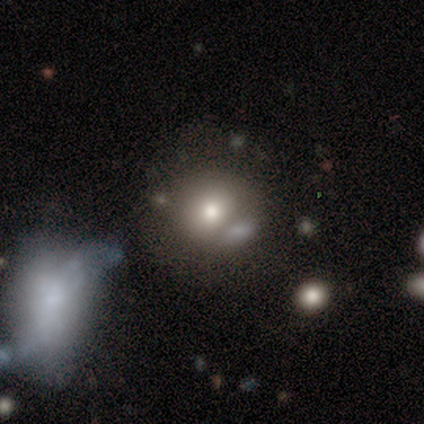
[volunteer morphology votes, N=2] Smooth or featured? 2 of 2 (100%) said smooth. How rounded? 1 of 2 (50%, tied with in between) said round. Merging? 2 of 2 (100%) said none.